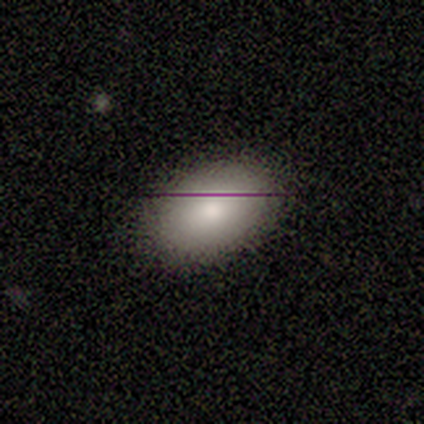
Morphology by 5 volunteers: smooth-or-featured: smooth: 100% | featured or disk: 0% | star or artifact: 0%
  how-rounded: in between: 100% | round: 0% | cigar-shaped: 0%
  merging: none: 100% | minor disturbance: 0% | major disturbance: 0% | merger: 0%